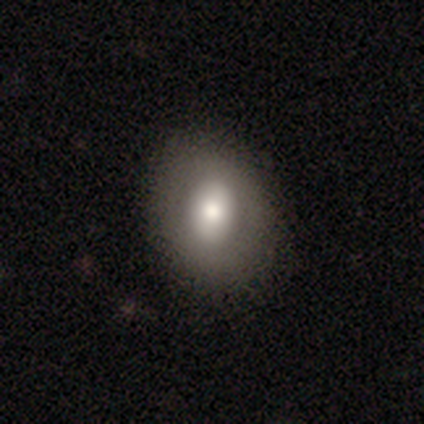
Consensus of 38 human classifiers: Smooth or featured? 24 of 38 (63%) said smooth. How rounded? 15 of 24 (62%) said in between. Merging? 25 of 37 (68%) said none.